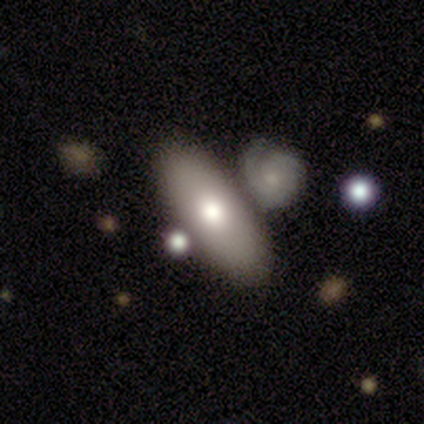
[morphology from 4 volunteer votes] Smooth or featured? 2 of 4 (50%, tied with featured or disk) said smooth. How rounded? 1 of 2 (50%, tied with cigar-shaped) said in between. Merging? 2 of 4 (50%, tied with minor disturbance) said none.